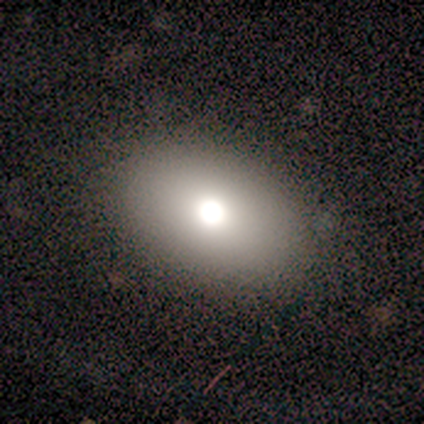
smooth_or_featured: smooth (p=0.80) [alt: star or artifact p=0.20]
how_rounded: in between (p=1.00)
merging: none (p=0.75) [alt: major disturbance p=0.25]